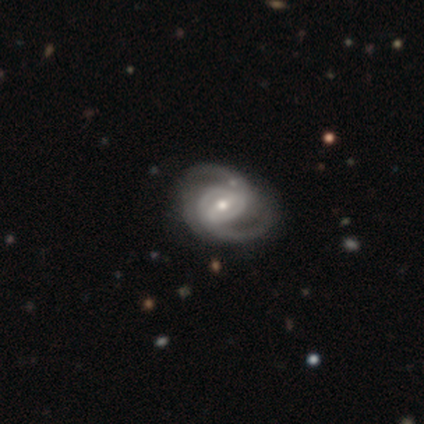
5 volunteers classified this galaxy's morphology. smooth-or-featured: featured or disk: 100% | smooth: 0% | star or artifact: 0%
  disk-edge-on: no: 80% | yes: 20%
    bar: weak: 75% | no: 25% | strong: 0%
    has-spiral-arms: yes: 100% | no: 0%
      spiral-winding: medium: 75% | loose: 25% | tight: 0%
      spiral-arm-count: 2: 100% | 1: 0% | 3: 0% | 4: 0% | more than 4: 0% | can't tell: 0%
    bulge-size: small: 100% | dominant: 0% | large: 0% | moderate: 0% | none: 0%
  merging: none: 80% | minor disturbance: 20% | major disturbance: 0% | merger: 0%